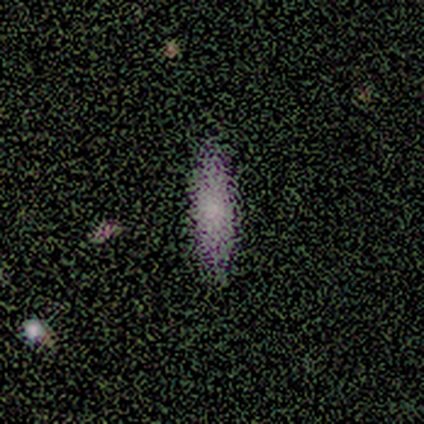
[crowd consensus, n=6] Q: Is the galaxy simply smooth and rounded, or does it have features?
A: smooth — 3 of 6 (50%).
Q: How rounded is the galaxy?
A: cigar-shaped — 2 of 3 (67%).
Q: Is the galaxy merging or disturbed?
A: none — 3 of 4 (75%).